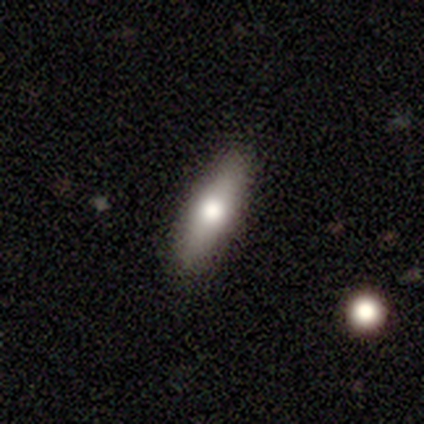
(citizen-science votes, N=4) smooth-or-featured: smooth: 75% | featured or disk: 25% | star or artifact: 0%
  how-rounded: in between: 67% | cigar-shaped: 33% | round: 0%
  merging: none: 100% | minor disturbance: 0% | major disturbance: 0% | merger: 0%